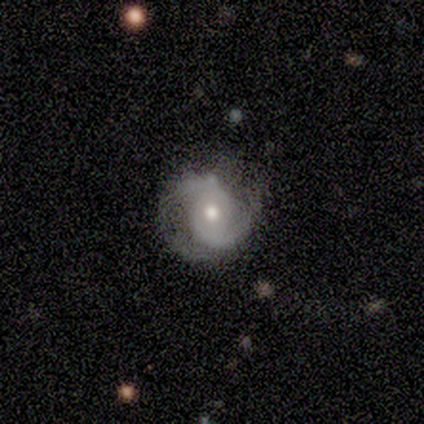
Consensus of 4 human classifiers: This is likely a featured or disk galaxy (75%). It is clearly not viewed edge-on (100%). Bar: clearly no (100%). Spiral arm pattern: clearly yes (100%). Spiral arm count: likely 2 (67%). Spiral winding: clearly medium (100%). Central bulge: likely small (67%). Merging: possibly major disturbance (50%).